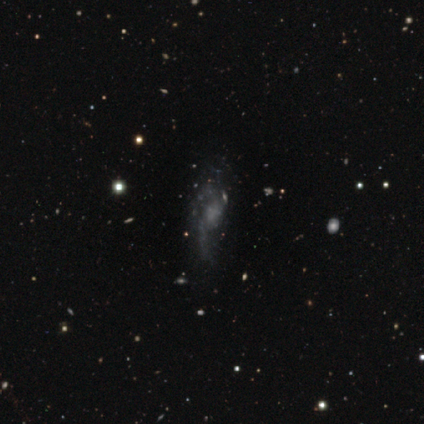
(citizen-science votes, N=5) Volunteers were most divided on "spiral winding" (2-way tie): tight: 40%, medium: 40%, loose: 20%; "spiral arm count" (2-way tie): 2: 40%, can't tell: 40%, 1: 20%, 3: 0%, 4: 0%, more than 4: 0%; "bulge size" (2-way tie): small: 40%, none: 40%, moderate: 20%, dominant: 0%, large: 0%. More confident: smooth or featured — featured or disk (100%); edge-on disk — no (100%); spiral arms — yes (100%); bar — no (80%); merging — none (80%).